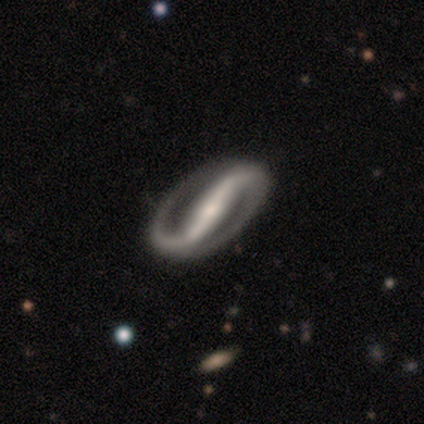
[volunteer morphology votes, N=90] Volunteers were most divided on "spiral winding": medium: 40%, loose: 32%, tight: 28%. More confident: spiral arms — yes (100%); spiral arm count — 2 (98%); edge-on disk — no (96%); smooth or featured — featured or disk (93%); merging — none (90%); bar — strong (80%); bulge size — small (60%).